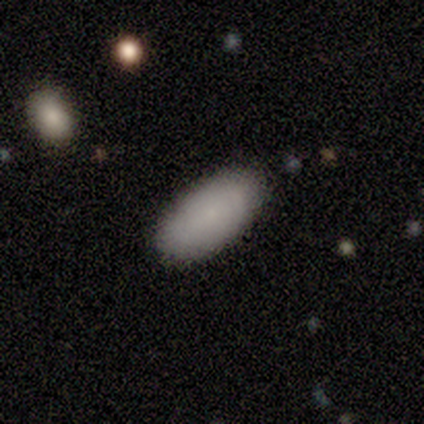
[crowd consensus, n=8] Smooth or featured?
  - smooth: 100% *
  - featured or disk: 0%
  - star or artifact: 0%
How rounded?
  - in between: 100% *
  - round: 0%
  - cigar-shaped: 0%
Merging?
  - none: 100% *
  - minor disturbance: 0%
  - major disturbance: 0%
  - merger: 0%